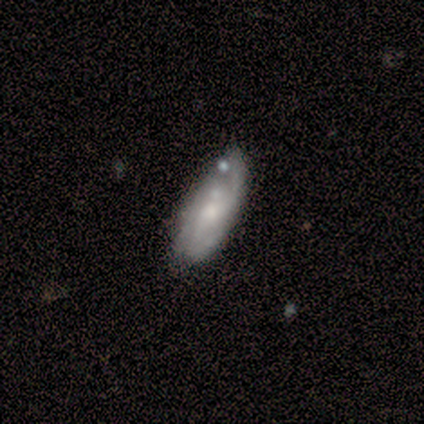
smooth-or-featured: featured or disk: 60% | smooth: 40% | star or artifact: 0%
  disk-edge-on: no: 100% | yes: 0%
    bar: no: 67% | weak: 33% | strong: 0%
    has-spiral-arms: yes: 100% | no: 0%
      spiral-winding: tight: 33% (tied) | medium: 33% (tied) | loose: 33% (tied)
      spiral-arm-count: 2: 67% | 3: 33% | 1: 0% | 4: 0% | more than 4: 0% | can't tell: 0%
    bulge-size: small: 67% | moderate: 33% | dominant: 0% | large: 0% | none: 0%
  merging: none: 60% | minor disturbance: 40% | major disturbance: 0% | merger: 0%